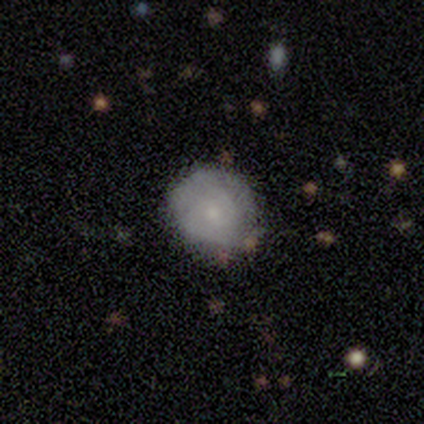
smooth_or_featured: featured or disk (p=0.60) [alt: smooth p=0.40]
disk_edge_on: no (p=1.00)
bar: no (p=1.00)
has_spiral_arms: yes (p=0.67) [alt: no p=0.33]
spiral_winding: tight (p=0.50) [tied with: loose p=0.50]
spiral_arm_count: 2 (p=0.50) [tied with: can't tell p=0.50]
bulge_size: moderate (p=0.67) [alt: none p=0.33]
merging: none (p=1.00)